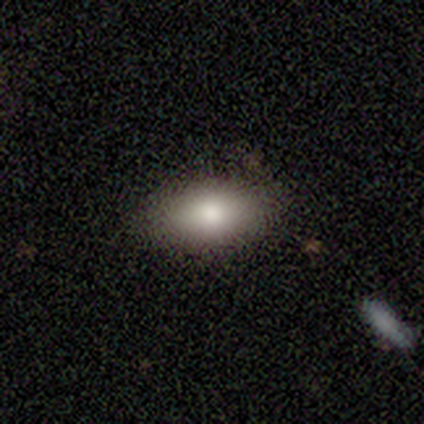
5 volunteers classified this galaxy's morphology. type=smooth (100%); roundness=in between (100%); merging=none (100%).